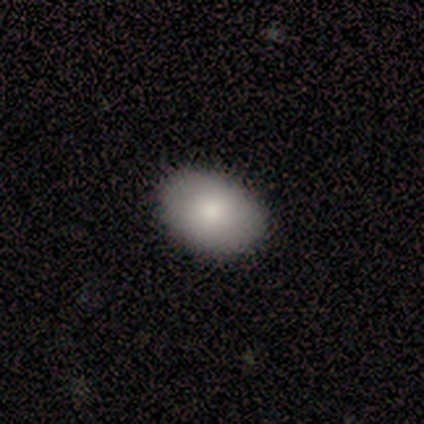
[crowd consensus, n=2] Smooth or featured?
  - smooth: 100% *
  - featured or disk: 0%
  - star or artifact: 0%
How rounded?
  - round: 50% * (tied)
  - in between: 50% * (tied)
  - cigar-shaped: 0%
Merging?
  - none: 100% *
  - minor disturbance: 0%
  - major disturbance: 0%
  - merger: 0%